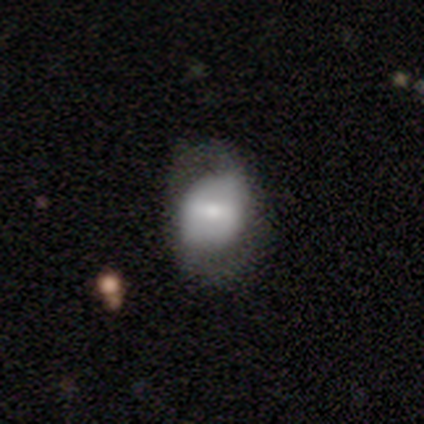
A featured or disk galaxy (54%) with a weak bar (52%), 2 (64%) medium (50%) spiral arms (52%) and a small central bulge (40%).

Vote fractions:
- Smooth or featured? featured or disk: 54% / smooth: 41% / star or artifact: 5%
- Edge-on disk? no: 100% / yes: 0%
- Bar? weak: 52% / strong: 38% / no: 10%
- Spiral arms? yes: 52% / no: 48%
- Spiral winding? medium: 50% / tight: 27% / loose: 23%
- Spiral arm count? 2: 64% / can't tell: 27% / 1: 5% / 4: 5% / 3: 0% / more than 4: 0%
- Bulge size? small: 40% / moderate: 38% / dominant: 10% / large: 10% / none: 2%
- Merging? none: 24% / minor disturbance: 16% / major disturbance: 11% / merger: 0%